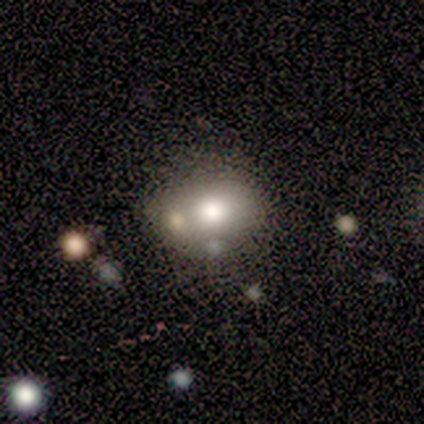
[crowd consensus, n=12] Smooth or featured?
  - smooth: 83% *
  - featured or disk: 17%
  - star or artifact: 0%
How rounded?
  - in between: 60% *
  - round: 40%
  - cigar-shaped: 0%
Merging?
  - minor disturbance: 50% *
  - none: 42%
  - major disturbance: 8%
  - merger: 0%